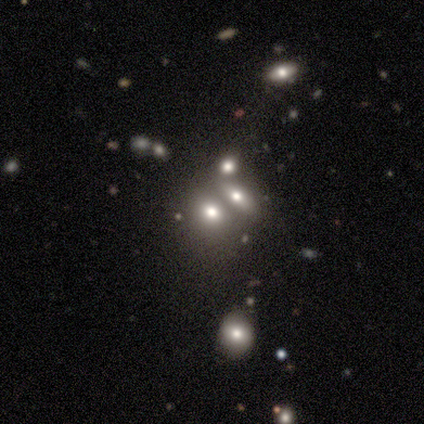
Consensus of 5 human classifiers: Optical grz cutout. It shows a smooth galaxy with no disk features (60%) that is in between round and cigar-shaped (67%). Merging: none (67%).